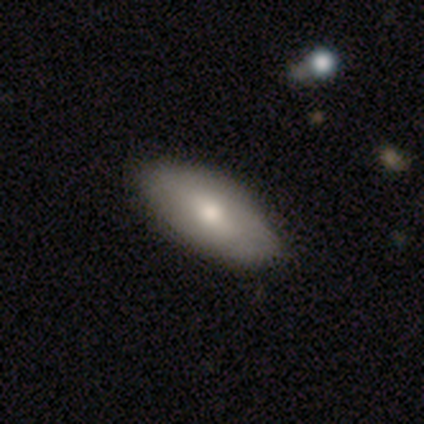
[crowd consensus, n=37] This is likely a smooth galaxy (76%). How rounded: clearly in between (93%). Merging: possibly none (54%).